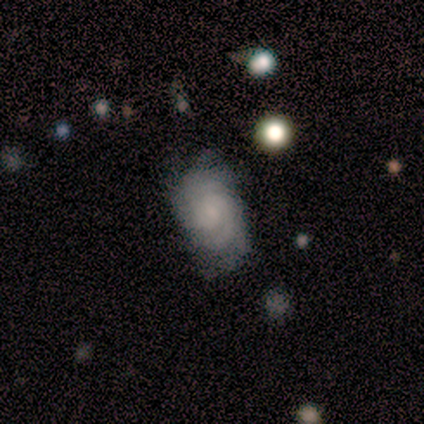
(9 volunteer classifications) Morphology: type=featured or disk (89%); edge-on=no (100%); bar=no (75%); spiral arms=yes (88%); winding=tight (57%); arm count=2 (71%); bulge=small (62%); merging=none (62%).